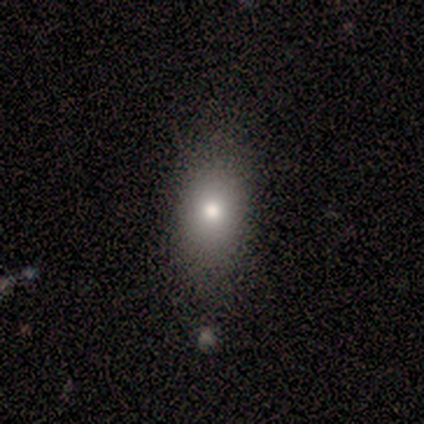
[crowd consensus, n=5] Morphology: type=smooth (60%); roundness=in between (100%); merging=none (75%).